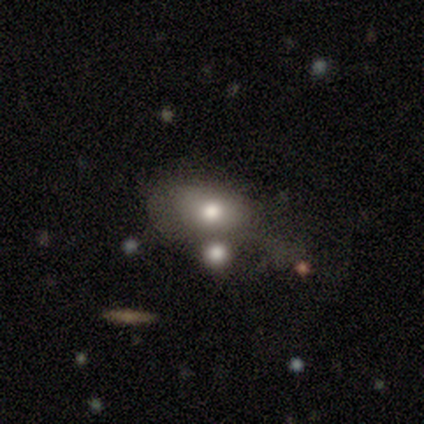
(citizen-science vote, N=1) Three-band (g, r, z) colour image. It shows a smooth galaxy with no disk features (100%) that is in between round and cigar-shaped (100%). Merging: minor disturbance (100%).